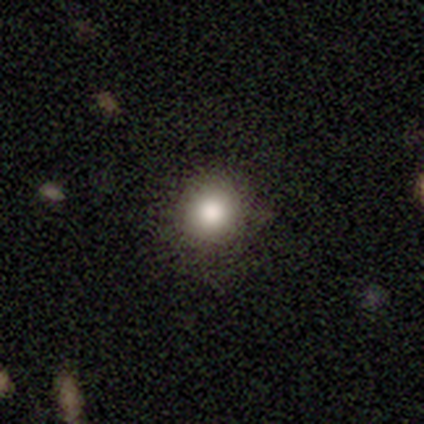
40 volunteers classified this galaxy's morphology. Smooth or featured: smooth — 78% (star or artifact — 15%)
How rounded: round — 90% (in between — 10%)
Merging: none — 85% (minor disturbance — 9%)